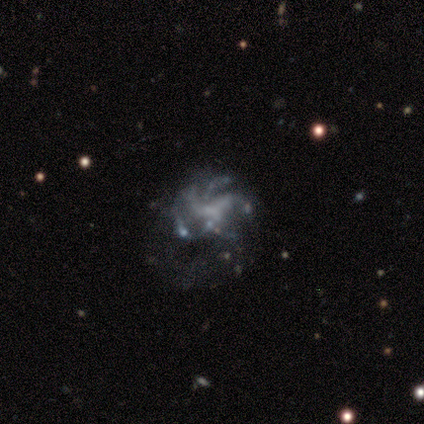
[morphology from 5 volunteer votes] A featured or disk galaxy (80%) with no bar (100%), 3 (25%, tied with 4, more than 4 and can't tell) medium (75%) spiral arms (100%) and a small central bulge (50%, tied with none).

Vote fractions:
- Smooth or featured? featured or disk: 80% / smooth: 20% / star or artifact: 0%
- Edge-on disk? no: 100% / yes: 0%
- Bar? no: 100% / strong: 0% / weak: 0%
- Spiral arms? yes: 100% / no: 0%
- Spiral winding? medium: 75% / loose: 25% / tight: 0%
- Spiral arm count? 3: 25% (tied) / 4: 25% (tied) / more than 4: 25% (tied) / can't tell: 25% (tied) / 1: 0% / 2: 0%
- Bulge size? small: 50% (tied) / none: 50% (tied) / dominant: 0% / large: 0% / moderate: 0%
- Merging? none: 60% / minor disturbance: 40% / major disturbance: 0% / merger: 0%